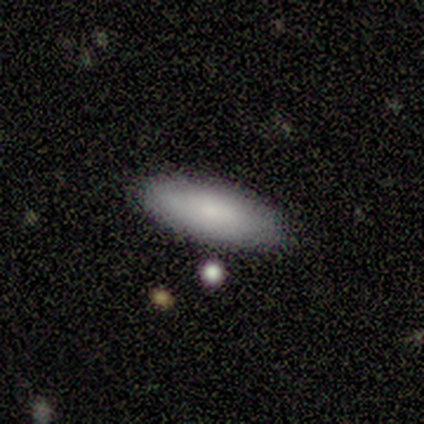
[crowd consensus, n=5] A smooth galaxy with no disk features (100%) that is in between round and cigar-shaped (80%). Merging: none (100%).